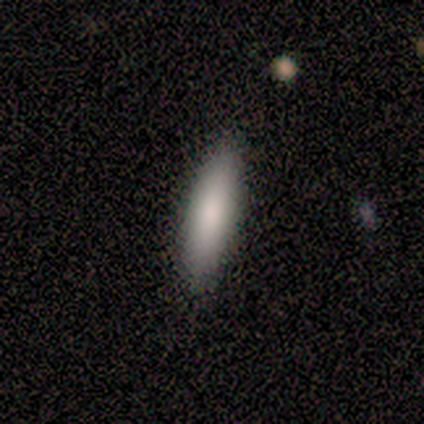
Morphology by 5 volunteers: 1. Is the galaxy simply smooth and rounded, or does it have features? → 100% smooth, 0% featured or disk, 0% star or artifact.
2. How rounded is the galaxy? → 100% cigar-shaped, 0% round, 0% in between.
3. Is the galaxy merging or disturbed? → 100% none, 0% minor disturbance, 0% major disturbance, 0% merger.